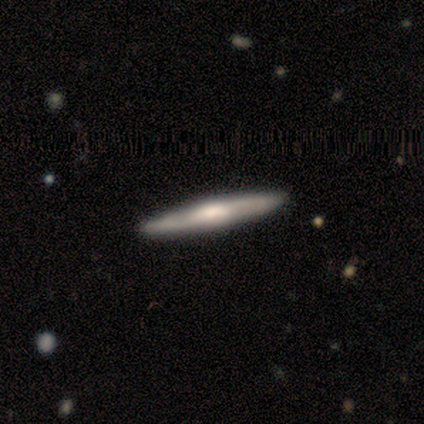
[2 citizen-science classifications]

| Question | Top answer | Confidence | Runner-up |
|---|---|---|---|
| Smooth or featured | smooth | 100% | — |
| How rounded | cigar-shaped | 100% | — |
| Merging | none | 100% | — |